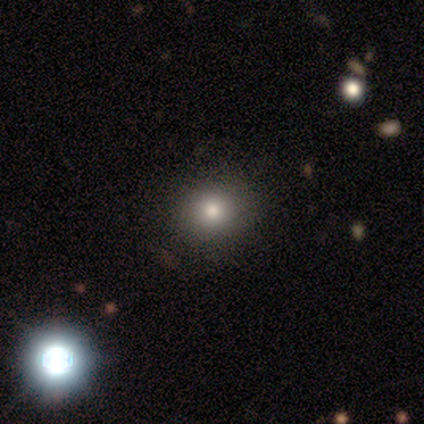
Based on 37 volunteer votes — A smooth galaxy with no disk features (62%) that is round (87%).

Vote fractions:
- Smooth or featured? smooth: 62% / star or artifact: 27% / featured or disk: 11%
- How rounded? round: 87% / in between: 13% / cigar-shaped: 0%
- Merging? none: 96% / minor disturbance: 4% / major disturbance: 0% / merger: 0%